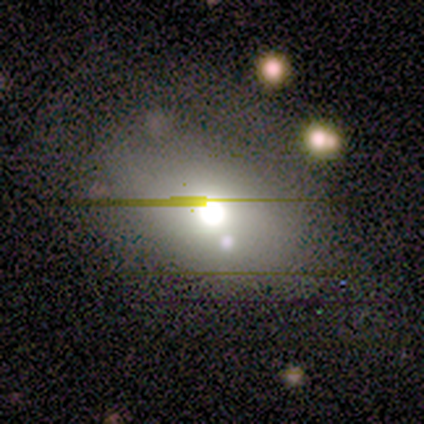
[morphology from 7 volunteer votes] smooth-or-featured: smooth: 43% | featured or disk: 29% | star or artifact: 29%
  how-rounded: round: 67% | in between: 33% | cigar-shaped: 0%
  merging: none: 60% | major disturbance: 20% | merger: 20% | minor disturbance: 0%